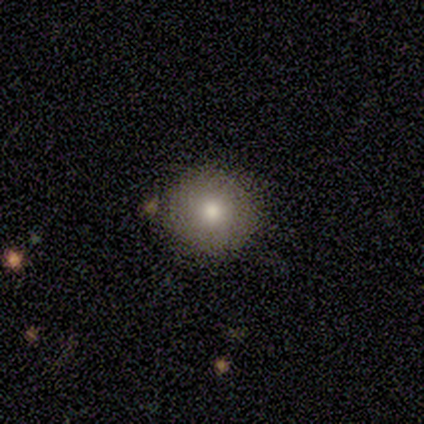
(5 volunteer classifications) smooth_or_featured: smooth (p=1.00)
how_rounded: round (p=1.00)
merging: none (p=0.80) [alt: minor disturbance p=0.20]